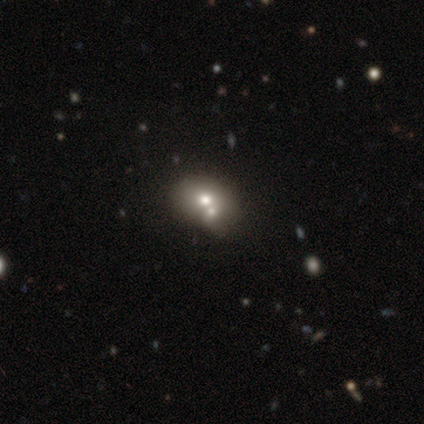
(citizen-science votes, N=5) Smooth or featured?
  - smooth: 80% *
  - star or artifact: 20%
  - featured or disk: 0%
How rounded?
  - in between: 75% *
  - round: 25%
  - cigar-shaped: 0%
Merging?
  - merger: 75% *
  - none: 25%
  - minor disturbance: 0%
  - major disturbance: 0%